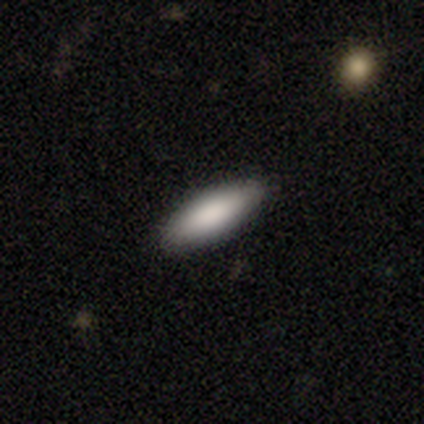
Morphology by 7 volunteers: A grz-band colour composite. It shows a smooth galaxy with no disk features (100%) that is in between round and cigar-shaped (57%). Merging: none (100%).